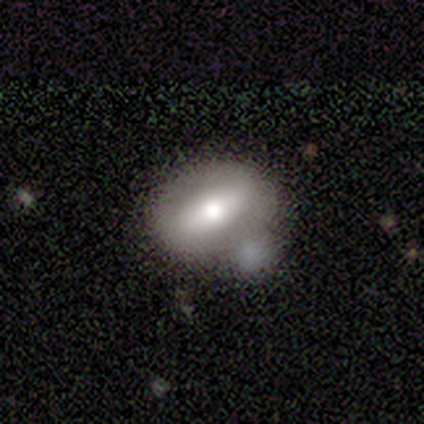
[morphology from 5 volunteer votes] Volunteers were most divided on "smooth or featured" (2-way tie): smooth: 40%, featured or disk: 40%, star or artifact: 20%; "how rounded" (2-way tie): round: 50%, in between: 50%, cigar-shaped: 0%. More confident: merging — none (50%).